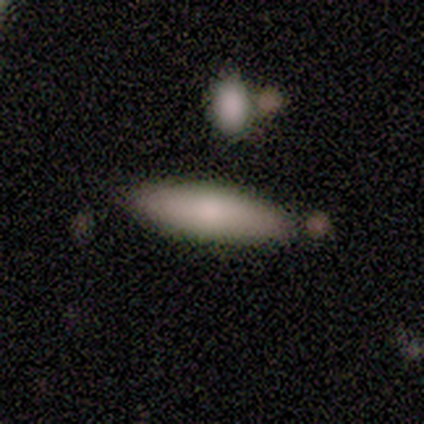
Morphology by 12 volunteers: Overall: smooth (92%). How rounded: cigar-shaped (55%; in between 36%). Merging: none (83%).